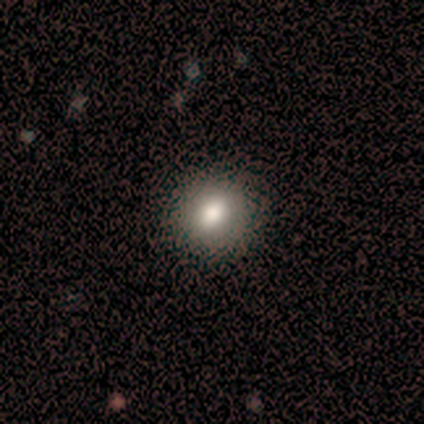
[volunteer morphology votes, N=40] Smooth or featured? smooth (75%)
How rounded? round (77%)
Merging? none (74%)